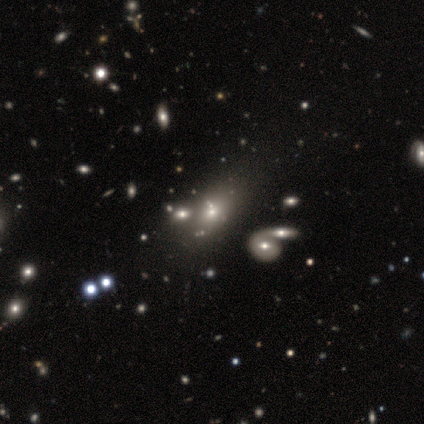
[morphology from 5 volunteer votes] Smooth or featured? smooth (100%)
How rounded? in between (60%)
Merging? none (60%)